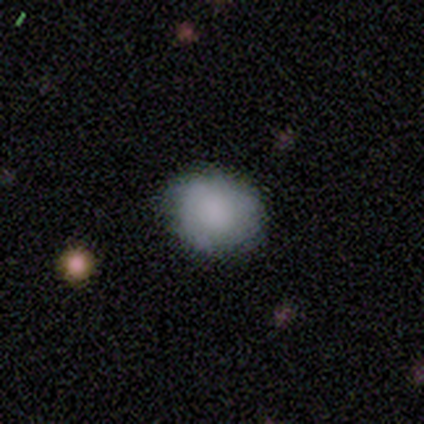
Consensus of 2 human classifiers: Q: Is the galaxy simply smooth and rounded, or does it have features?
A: smooth — 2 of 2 (100%).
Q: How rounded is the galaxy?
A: round — 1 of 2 (50%, tied with in between).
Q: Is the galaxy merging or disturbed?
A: none — 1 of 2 (50%, tied with minor disturbance).